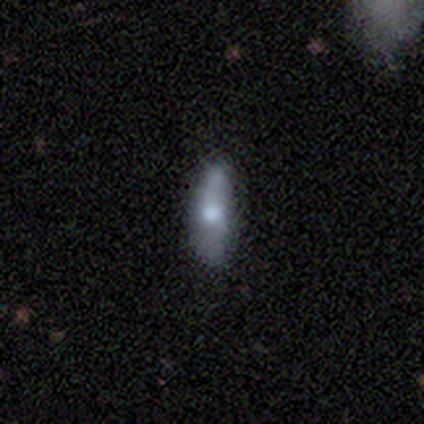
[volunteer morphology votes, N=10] type=smooth (100%); roundness=cigar-shaped (60%); merging=none (90%).